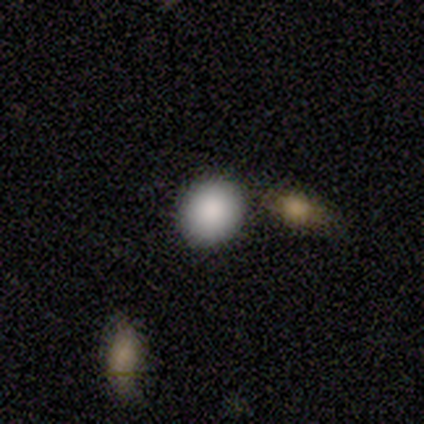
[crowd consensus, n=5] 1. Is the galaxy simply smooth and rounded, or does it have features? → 100% smooth, 0% featured or disk, 0% star or artifact.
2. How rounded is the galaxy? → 100% round, 0% in between, 0% cigar-shaped.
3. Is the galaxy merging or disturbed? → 60% none, 40% merger, 0% minor disturbance, 0% major disturbance.